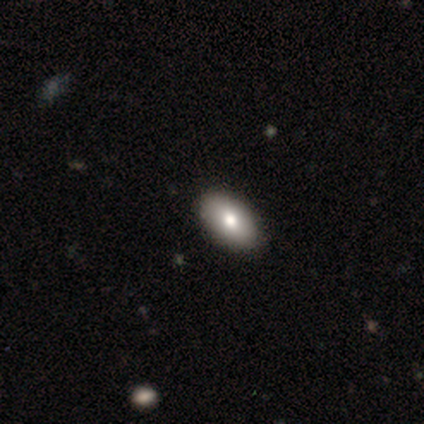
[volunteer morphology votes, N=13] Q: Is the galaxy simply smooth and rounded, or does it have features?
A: smooth — 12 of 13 (92%).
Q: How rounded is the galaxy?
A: in between — 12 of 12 (100%).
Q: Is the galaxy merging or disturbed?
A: none — 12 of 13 (92%).